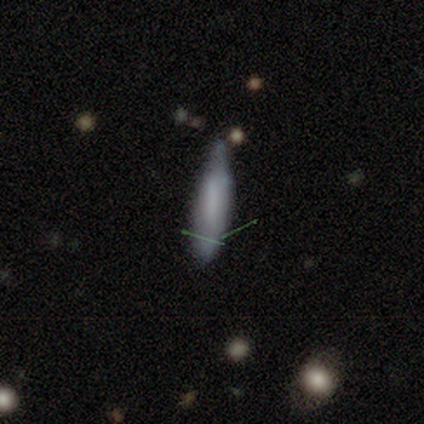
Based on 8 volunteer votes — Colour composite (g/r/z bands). It shows a smooth galaxy with no disk features (88%) that is cigar-shaped (57%). Merging: minor disturbance (71%).